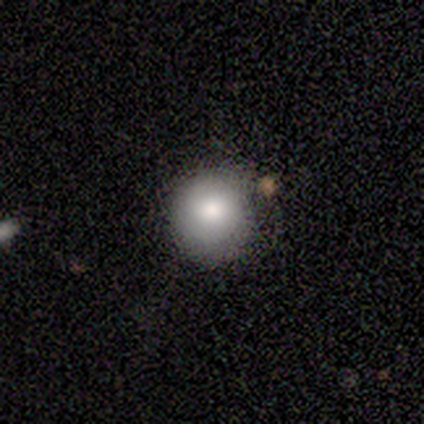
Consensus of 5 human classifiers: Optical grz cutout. It shows a smooth galaxy with no disk features (80%) that is round (100%). Merging: none (60%).